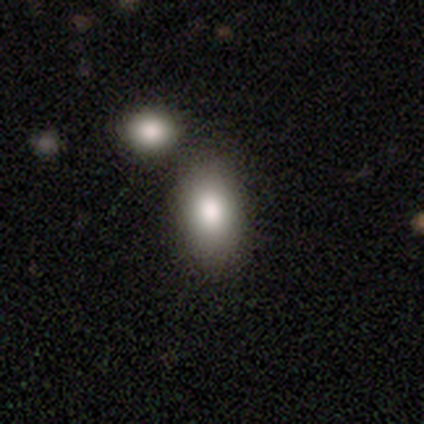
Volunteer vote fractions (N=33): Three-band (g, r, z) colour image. It shows a smooth galaxy with no disk features (82%) that is in between round and cigar-shaped (89%). Merging: merger (55%).